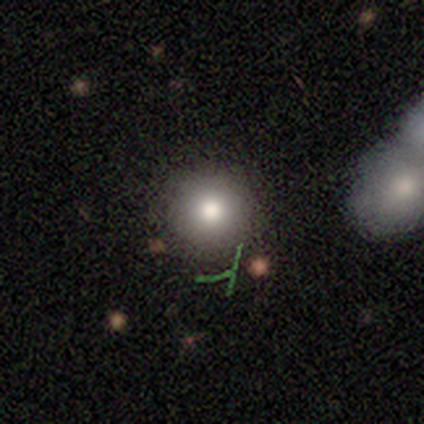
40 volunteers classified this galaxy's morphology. Q: Smooth or featured?
A: smooth (68%); runner-up: star or artifact (20%)
Q: How rounded?
A: round (93%); runner-up: in between (7%)
Q: Merging?
A: none (88%); runner-up: minor disturbance (6%)